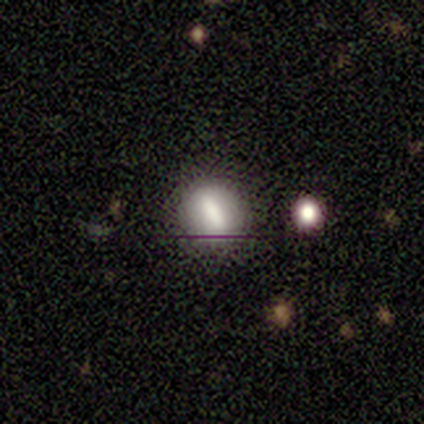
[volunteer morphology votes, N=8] Volunteers were most divided on "how rounded": round: 75%, in between: 12%, cigar-shaped: 12%. More confident: smooth or featured — smooth (100%); merging — none (88%).